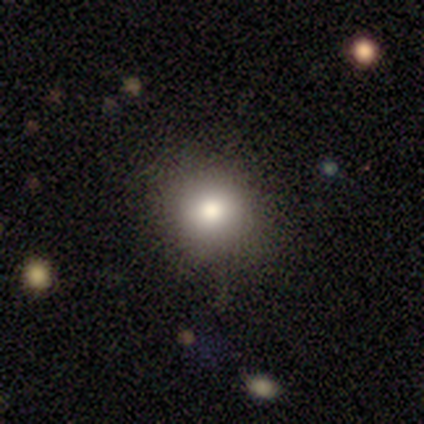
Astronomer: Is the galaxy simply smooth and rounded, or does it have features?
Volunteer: smooth — 67%.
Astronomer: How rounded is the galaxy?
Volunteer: round — 100%.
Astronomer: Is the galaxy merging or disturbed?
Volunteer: none — 100%.